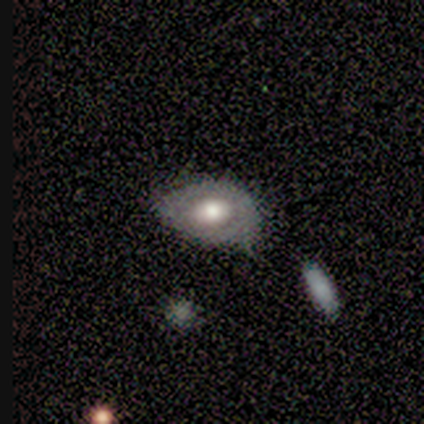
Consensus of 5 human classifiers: smooth_or_featured: smooth (p=0.60) [alt: featured or disk p=0.40]
how_rounded: in between (p=1.00)
merging: minor disturbance (p=0.40) [tied with: major disturbance p=0.40]